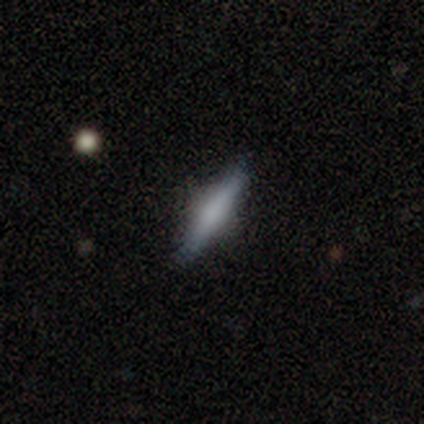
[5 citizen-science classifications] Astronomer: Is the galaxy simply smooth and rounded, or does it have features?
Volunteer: featured or disk — 60% (runner-up: smooth, 40%).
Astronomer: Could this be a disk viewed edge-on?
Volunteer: yes — 100%.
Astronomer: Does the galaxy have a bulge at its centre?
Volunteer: rounded — 100%.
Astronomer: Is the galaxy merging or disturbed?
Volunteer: none — 100%.